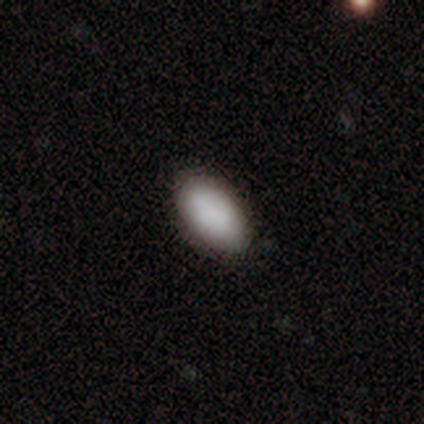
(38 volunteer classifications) Smooth or featured? 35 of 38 (92%) said smooth. How rounded? 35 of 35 (100%) said in between. Merging? 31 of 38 (82%) said none.